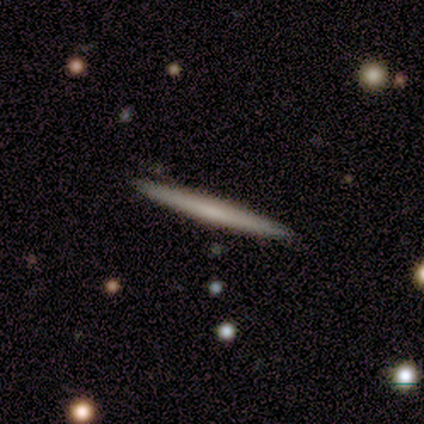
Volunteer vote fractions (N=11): Q: Smooth or featured?
A: smooth (73%); runner-up: featured or disk (27%)
Q: How rounded?
A: cigar-shaped (100%)
Q: Merging?
A: none (91%); runner-up: merger (9%)